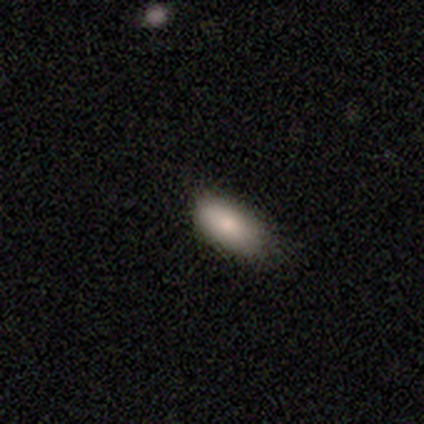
A smooth galaxy with no disk features (100%) that is in between round and cigar-shaped (100%).

Vote fractions:
- Smooth or featured? smooth: 100% / featured or disk: 0% / star or artifact: 0%
- How rounded? in between: 100% / round: 0% / cigar-shaped: 0%
- Merging? none: 60% / minor disturbance: 40% / major disturbance: 0% / merger: 0%